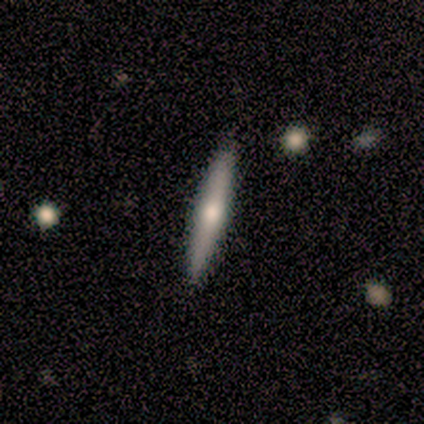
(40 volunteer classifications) smooth 57%, featured or disk 38%, star or artifact 5%. Down the decision tree: how rounded — cigar-shaped (100%); merging — none (95%).